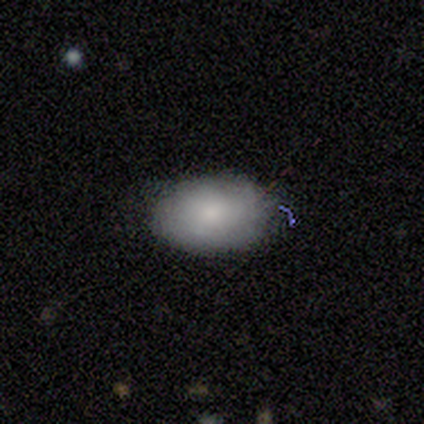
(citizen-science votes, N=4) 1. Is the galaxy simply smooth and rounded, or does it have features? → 75% smooth, 25% featured or disk, 0% star or artifact.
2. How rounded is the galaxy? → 100% in between, 0% round, 0% cigar-shaped.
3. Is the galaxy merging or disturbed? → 50% none (tied), 50% minor disturbance (tied), 0% major disturbance, 0% merger.